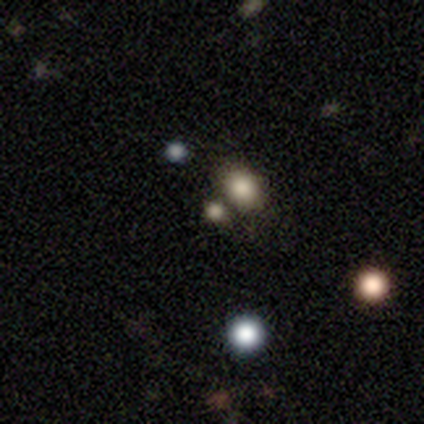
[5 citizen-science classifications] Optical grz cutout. It shows a smooth galaxy with no disk features (80%) that is round (100%). Merging: none (75%).